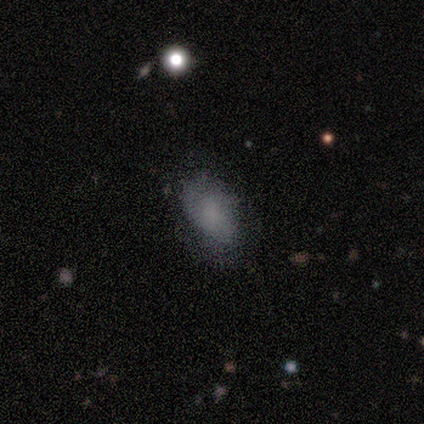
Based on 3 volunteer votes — Q: Smooth or featured?
A: smooth (100%)
Q: How rounded?
A: in between (100%)
Q: Merging?
A: none (67%); runner-up: major disturbance (33%)